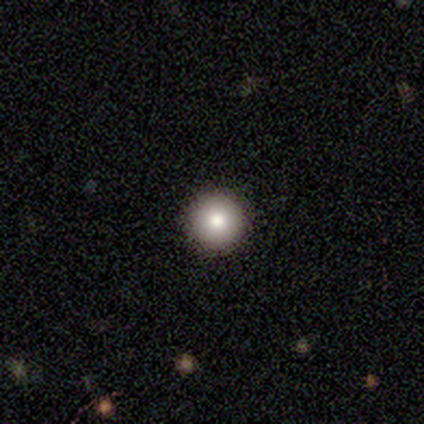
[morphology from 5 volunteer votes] Smooth or featured?
  - smooth: 80% *
  - featured or disk: 20%
  - star or artifact: 0%
How rounded?
  - round: 100% *
  - in between: 0%
  - cigar-shaped: 0%
Merging?
  - none: 100% *
  - minor disturbance: 0%
  - major disturbance: 0%
  - merger: 0%